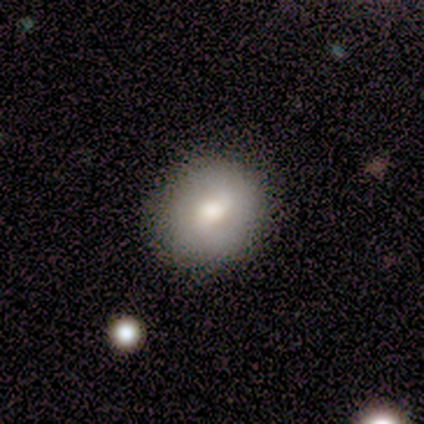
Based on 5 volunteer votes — smooth_or_featured: smooth (p=1.00)
how_rounded: round (p=0.80) [alt: in between p=0.20]
merging: none (p=0.80) [alt: minor disturbance p=0.20]